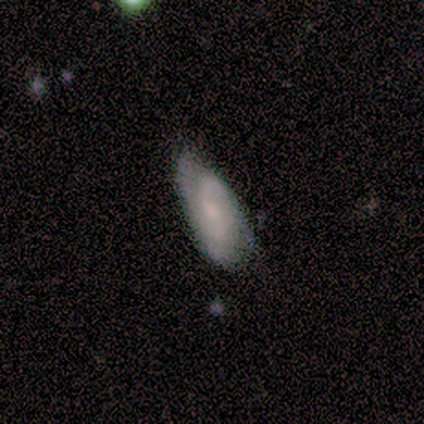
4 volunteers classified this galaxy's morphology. Smooth or featured? 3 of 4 (75%) said featured or disk. Edge-on disk? 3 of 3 (100%) said no. Bar? 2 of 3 (67%) said no. Spiral arms? 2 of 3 (67%) said yes. Spiral winding? 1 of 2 (50%, tied with loose) said medium. Spiral arm count? 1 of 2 (50%, tied with 4) said 2. Bulge size? 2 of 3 (67%) said moderate. Merging? 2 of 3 (67%) said none.